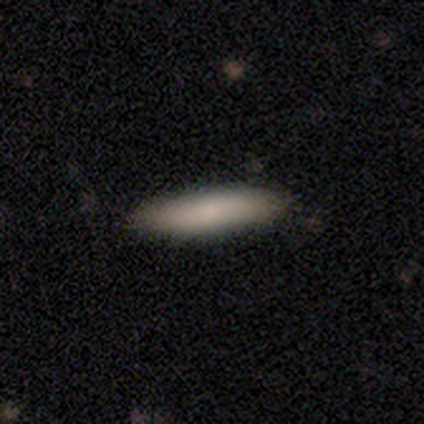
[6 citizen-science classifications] A smooth galaxy with no disk features (100%) that is cigar-shaped (100%). Merging: none (100%).